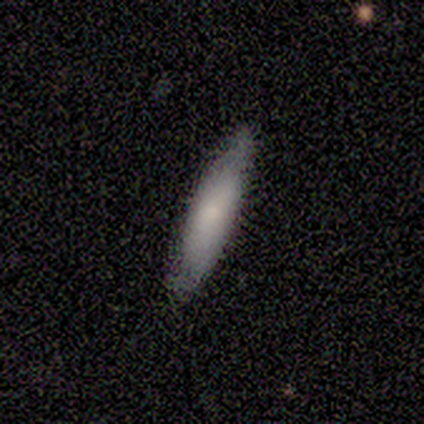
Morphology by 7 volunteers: Smooth or featured: smooth — 100%
How rounded: cigar-shaped — 71% (in between — 29%)
Merging: none — 100%